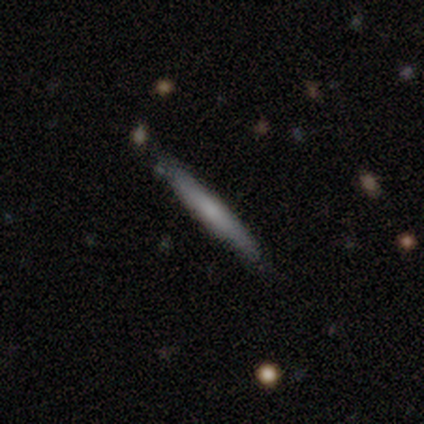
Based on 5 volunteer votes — featured or disk 60%, smooth 40%, star or artifact 0%. Down the decision tree: edge-on disk — yes (100%); edge-on bulge — boxy (33%, tied with none and rounded); merging — none (80%).